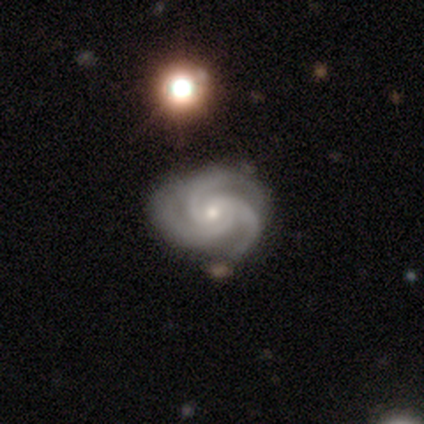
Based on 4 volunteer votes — smooth_or_featured: featured or disk (p=0.75) [alt: star or artifact p=0.25]
disk_edge_on: no (p=1.00)
bar: weak (p=0.67) [alt: no p=0.33]
has_spiral_arms: yes (p=1.00)
spiral_winding: medium (p=0.67) [alt: tight p=0.33]
spiral_arm_count: 3 (p=1.00)
bulge_size: moderate (p=0.67) [alt: small p=0.33]
merging: none (p=0.67) [alt: minor disturbance p=0.33]